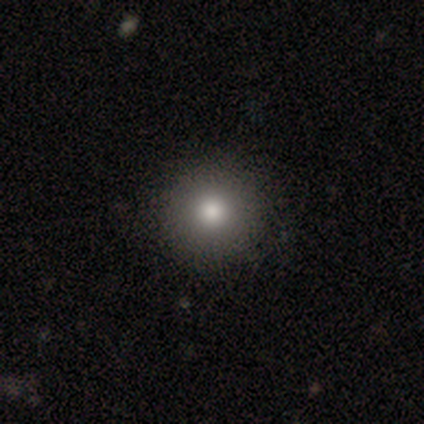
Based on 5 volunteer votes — smooth 80%, featured or disk 20%, star or artifact 0%. Down the decision tree: how rounded — round (75%); merging — none (80%).